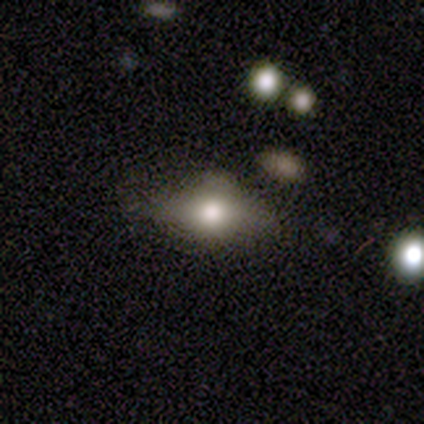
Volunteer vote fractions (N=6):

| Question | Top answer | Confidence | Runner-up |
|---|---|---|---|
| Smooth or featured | smooth | 67% | star or artifact (33%) |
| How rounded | in between | 50% | round (25%) |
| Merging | none | 75% | merger (25%) |